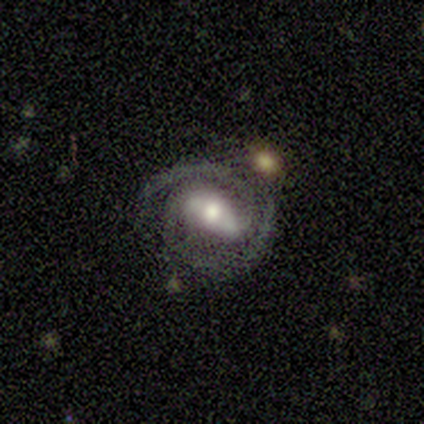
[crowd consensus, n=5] Smooth or featured: featured or disk — 80% (star or artifact — 20%)
Edge-on disk: no — 100%
Bar: strong — 75% (no — 25%)
Spiral arms: yes — 100%
Spiral winding: tight — 75% (medium — 25%)
Spiral arm count: 2 — 75% (3 — 25%)
Bulge size: moderate — 50% (large — 25%)
Merging: minor disturbance — 50% (none — 25%)